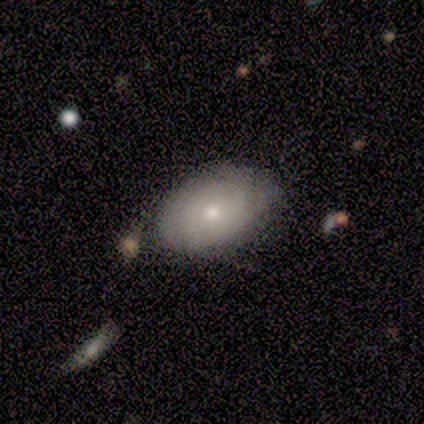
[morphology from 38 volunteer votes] smooth_or_featured: smooth (p=0.63) [alt: featured or disk p=0.34]
how_rounded: in between (p=0.83) [alt: round p=0.12]
merging: none (p=0.70) [alt: minor disturbance p=0.19]